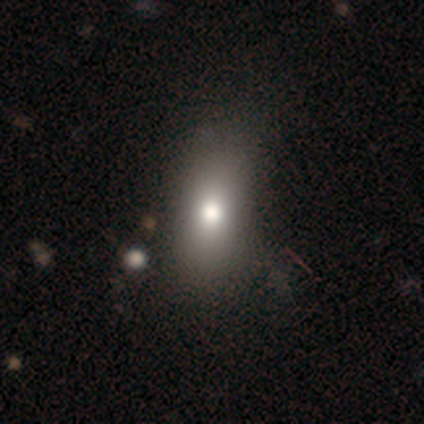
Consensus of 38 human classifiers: A smooth galaxy with no disk features (74%) that is in between round and cigar-shaped (86%).

Vote fractions:
- Smooth or featured? smooth: 74% / star or artifact: 21% / featured or disk: 5%
- How rounded? in between: 86% / round: 7% / cigar-shaped: 7%
- Merging? none: 63% / minor disturbance: 10% / merger: 3% / major disturbance: 0%